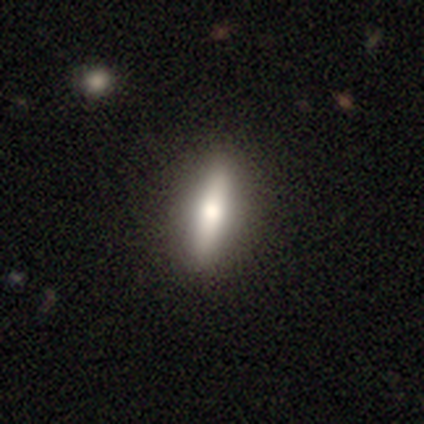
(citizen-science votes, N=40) This is likely a smooth galaxy (62%). How rounded: likely cigar-shaped (64%). Merging: likely none (76%).